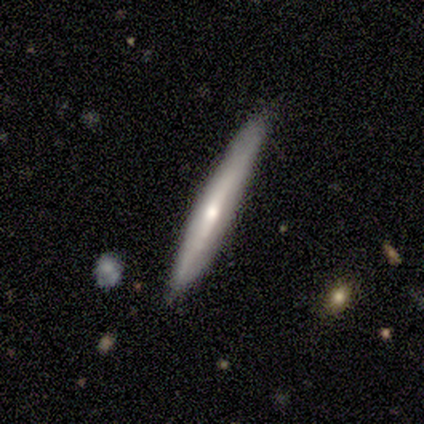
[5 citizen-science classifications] Smooth or featured?
  - featured or disk: 60% *
  - smooth: 20%
  - star or artifact: 20%
Edge-on disk?
  - yes: 100% *
  - no: 0%
Edge-on bulge?
  - none: 67% *
  - rounded: 33%
  - boxy: 0%
Merging?
  - none: 100% *
  - minor disturbance: 0%
  - major disturbance: 0%
  - merger: 0%